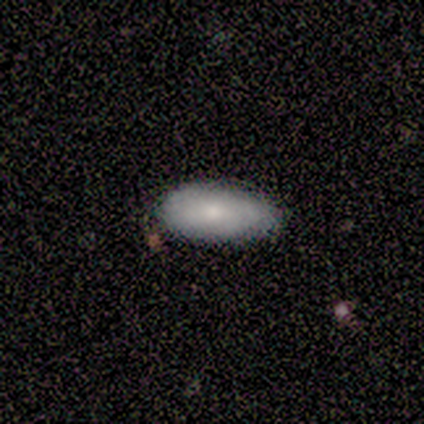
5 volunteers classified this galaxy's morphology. Overall: smooth (100%). How rounded: in between (100%). Merging: none (80%).